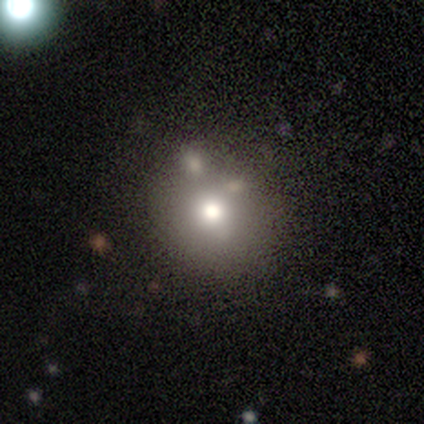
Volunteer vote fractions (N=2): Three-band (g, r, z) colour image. It shows a smooth galaxy with no disk features (100%) that is round (100%). Merging: none (50%, tied with merger).